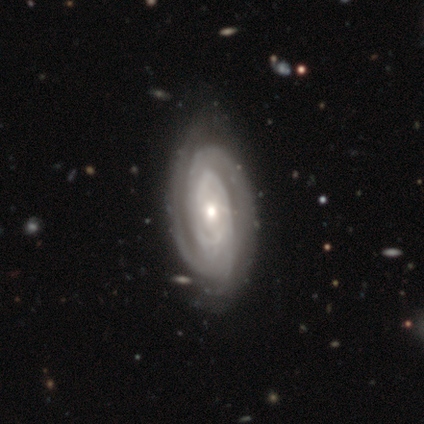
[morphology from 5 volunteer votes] Q: Smooth or featured?
A: featured or disk (100%)
Q: Edge-on disk?
A: no (100%)
Q: Bar?
A: no (80%); runner-up: weak (20%)
Q: Spiral arms?
A: yes (100%)
Q: Spiral winding?
A: tight (80%); runner-up: loose (20%)
Q: Spiral arm count?
A: 2 (40%); tied with: 3 (40%)
Q: Bulge size?
A: moderate (60%); runner-up: small (40%)
Q: Merging?
A: none (100%)